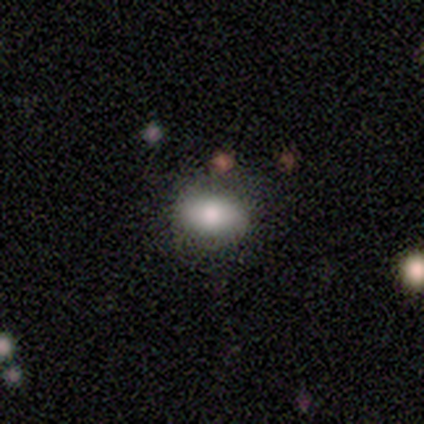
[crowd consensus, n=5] smooth_or_featured: smooth (p=0.80) [alt: featured or disk p=0.20]
how_rounded: in between (p=1.00)
merging: none (p=1.00)